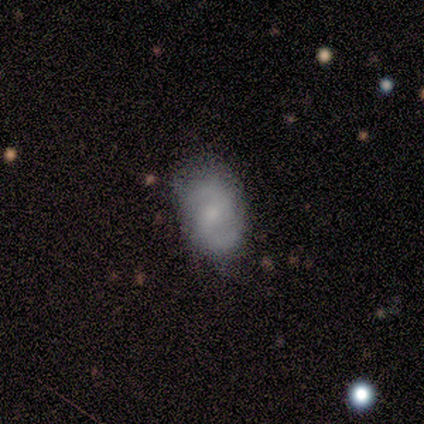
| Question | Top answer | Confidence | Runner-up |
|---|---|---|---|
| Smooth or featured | featured or disk | 60% | smooth (40%) |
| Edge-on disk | no | 67% | yes (33%) |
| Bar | weak | 100% | — |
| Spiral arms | yes | 100% | — |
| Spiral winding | loose | 100% | — |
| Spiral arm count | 2 | 100% | — |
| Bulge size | moderate | 50% | tied: small (50%) |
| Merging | minor disturbance | 60% | none (40%) |